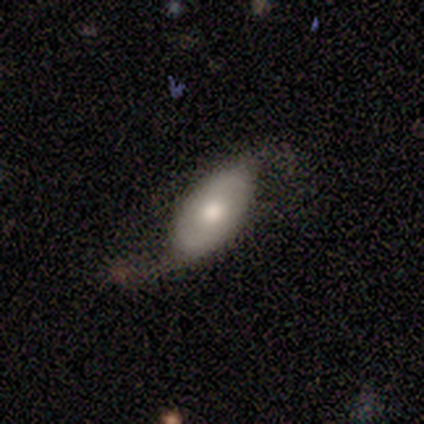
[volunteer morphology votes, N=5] Volunteers were most divided on "merging": none: 60%, minor disturbance: 20%, major disturbance: 20%, merger: 0%. More confident: edge-on disk — no (100%); bar — no (100%); spiral arms — yes (100%); spiral arm count — 2 (100%); smooth or featured — featured or disk (80%); spiral winding — loose (75%); bulge size — moderate (75%).